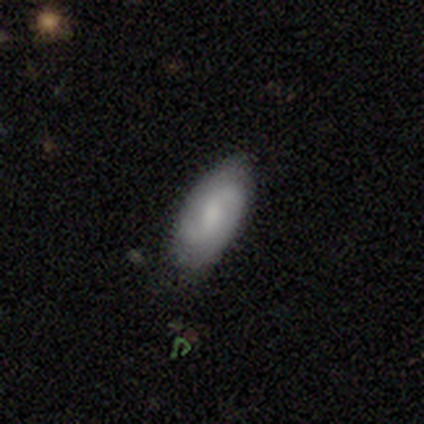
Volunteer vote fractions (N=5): A smooth galaxy with no disk features (60%) that is in between round and cigar-shaped (67%). Merging: none (80%).